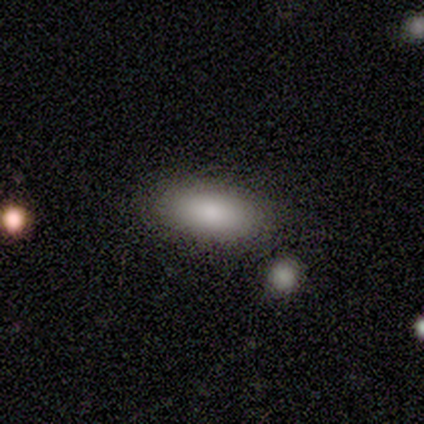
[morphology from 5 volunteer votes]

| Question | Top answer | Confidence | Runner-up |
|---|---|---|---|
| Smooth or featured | smooth | 100% | — |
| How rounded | in between | 100% | — |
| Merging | none | 60% | minor disturbance (40%) |